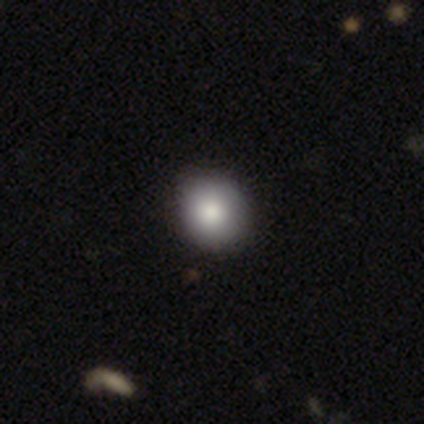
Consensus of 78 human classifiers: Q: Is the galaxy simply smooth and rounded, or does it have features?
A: smooth — 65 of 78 (83%).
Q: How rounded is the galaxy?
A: round — 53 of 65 (82%).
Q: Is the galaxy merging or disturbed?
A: none — 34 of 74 (46%).